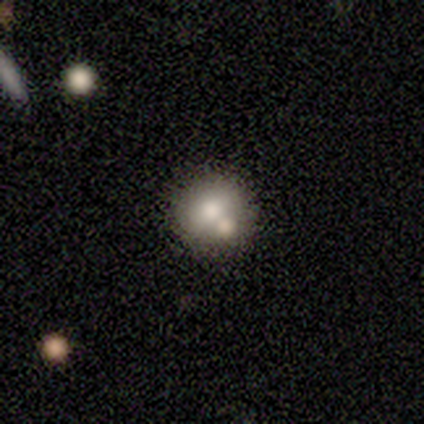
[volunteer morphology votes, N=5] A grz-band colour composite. It shows a smooth galaxy with no disk features (40%, tied with featured or disk) that is round (100%). Merging: merger (50%).